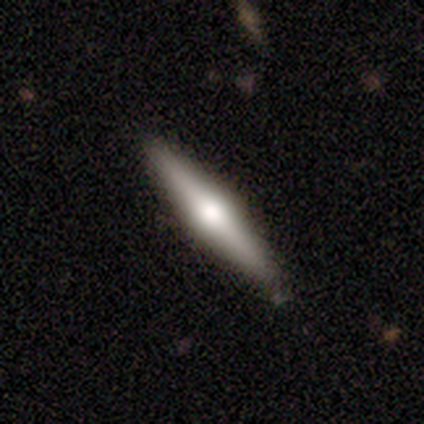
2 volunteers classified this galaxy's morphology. Overall: featured or disk (100%). Edge-on disk: yes (100%). Edge-on bulge: boxy (50%, tied with rounded). Merging: none (100%).